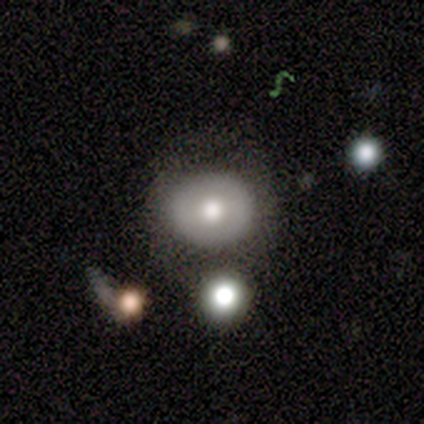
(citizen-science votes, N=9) Volunteers were most divided on "smooth or featured": smooth: 67%, featured or disk: 33%, star or artifact: 0%. More confident: merging — none (89%); how rounded — round (83%).